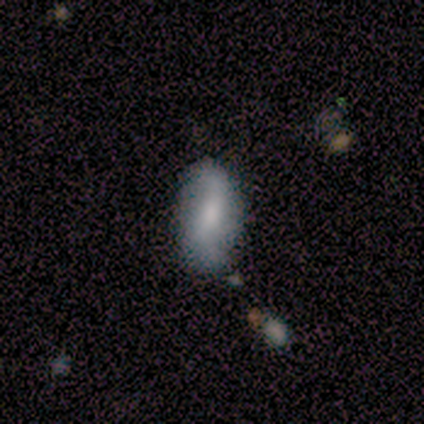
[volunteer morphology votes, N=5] Volunteers were most divided on "merging": none: 60%, minor disturbance: 40%, major disturbance: 0%, merger: 0%. More confident: smooth or featured — smooth (100%); how rounded — in between (100%).